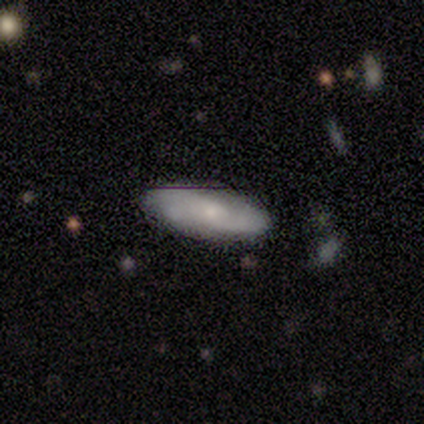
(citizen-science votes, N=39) A featured or disk galaxy (51%) with no bar (61%), 2 (67%) medium (60%) spiral arms (83%) and a small central bulge (67%). Merging: none (84%).